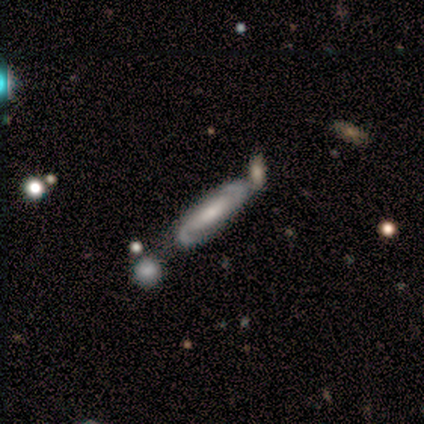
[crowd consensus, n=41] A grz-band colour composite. It shows a featured or disk galaxy (73%) with no bar (58%), 2 (86%) tight (45%) spiral arms (92%) and a moderate central bulge (42%, tied with small). Merging: none (68%).